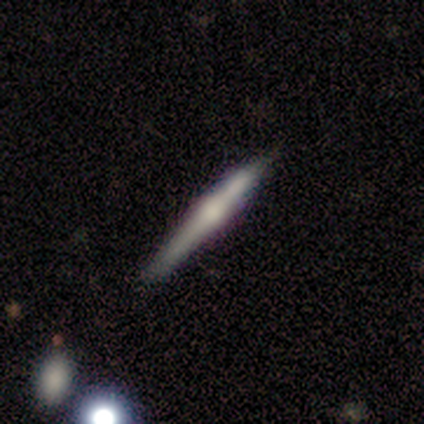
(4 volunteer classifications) Q: Smooth or featured?
A: featured or disk (100%)
Q: Edge-on disk?
A: yes (100%)
Q: Edge-on bulge?
A: rounded (50%); runner-up: boxy (25%)
Q: Merging?
A: none (50%); runner-up: minor disturbance (25%)